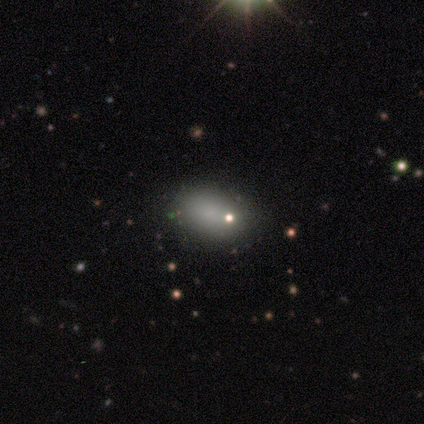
Smooth or featured? 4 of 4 (100%) said smooth. How rounded? 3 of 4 (75%) said in between. Merging? 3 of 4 (75%) said none.